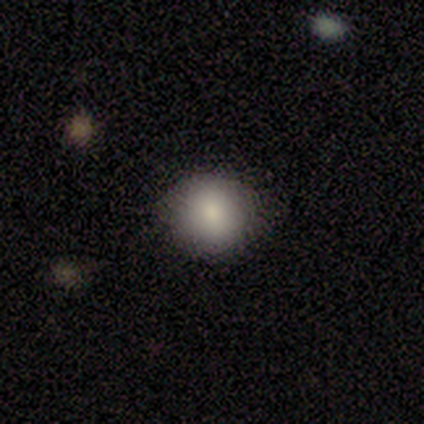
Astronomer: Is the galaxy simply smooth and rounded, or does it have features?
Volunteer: smooth — 93%.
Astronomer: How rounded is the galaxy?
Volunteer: round — 85%.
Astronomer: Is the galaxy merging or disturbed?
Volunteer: none — 79%.